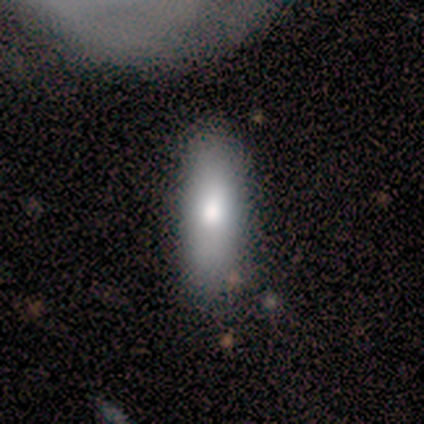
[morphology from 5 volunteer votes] A smooth galaxy with no disk features (80%) that is cigar-shaped (75%). Merging: none (60%).